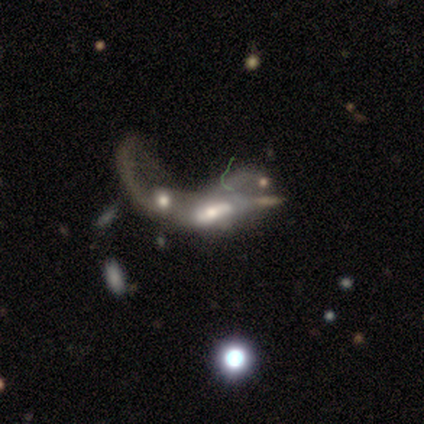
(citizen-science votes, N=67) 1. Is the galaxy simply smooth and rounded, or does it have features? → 70% featured or disk, 24% smooth, 6% star or artifact.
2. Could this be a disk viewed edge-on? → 89% no, 11% yes.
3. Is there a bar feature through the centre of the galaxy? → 40% no, 33% strong, 26% weak.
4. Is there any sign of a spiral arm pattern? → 67% no, 33% yes.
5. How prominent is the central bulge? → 48% moderate, 21% small, 19% large, 7% none, 5% dominant.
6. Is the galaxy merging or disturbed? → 86% merger, 11% major disturbance, 2% none, 2% minor disturbance.